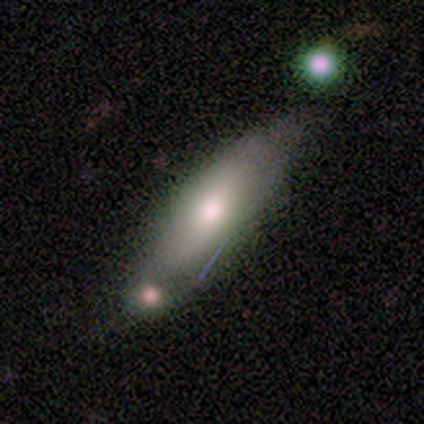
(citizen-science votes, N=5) This is clearly a smooth galaxy (100%). How rounded: likely in between (60%). Merging: likely none (60%).